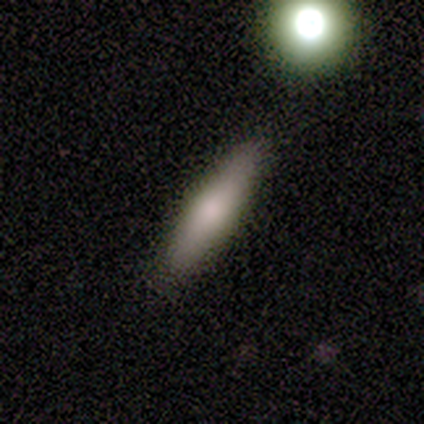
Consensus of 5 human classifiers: A smooth galaxy with no disk features (60%) that is cigar-shaped (100%). Merging: none (80%).